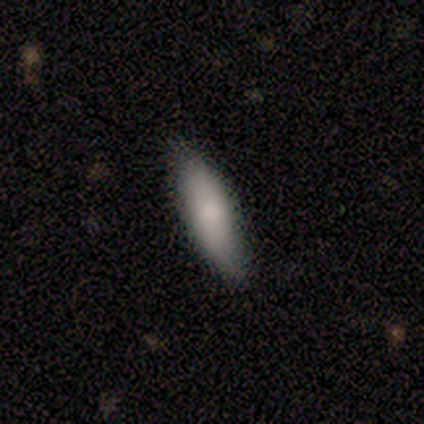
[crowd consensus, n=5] Volunteers were most divided on "smooth or featured" (2-way tie): smooth: 40%, featured or disk: 40%, star or artifact: 20%. More confident: how rounded — in between (100%); merging — none (75%).